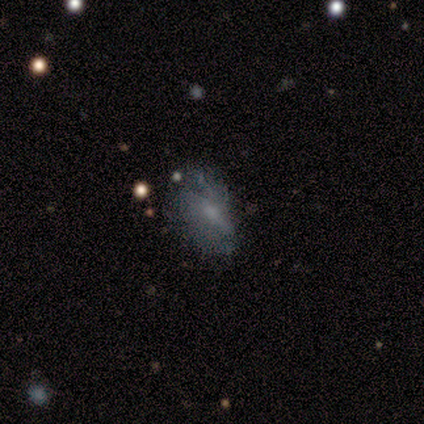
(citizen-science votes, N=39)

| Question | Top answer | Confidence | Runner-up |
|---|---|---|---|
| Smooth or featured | featured or disk | 64% | smooth (28%) |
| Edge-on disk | no | 92% | yes (8%) |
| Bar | no | 48% | weak (43%) |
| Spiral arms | no | 57% | yes (43%) |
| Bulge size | small | 43% | none (30%) |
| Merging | none | 39% | minor disturbance (33%) |